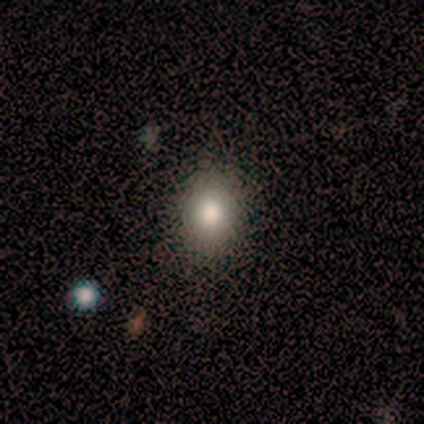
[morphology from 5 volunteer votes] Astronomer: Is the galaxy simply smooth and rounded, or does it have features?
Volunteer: smooth — 100%.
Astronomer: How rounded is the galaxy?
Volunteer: round — 60% (runner-up: in between, 40%).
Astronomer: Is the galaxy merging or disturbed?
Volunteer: none — 80%.